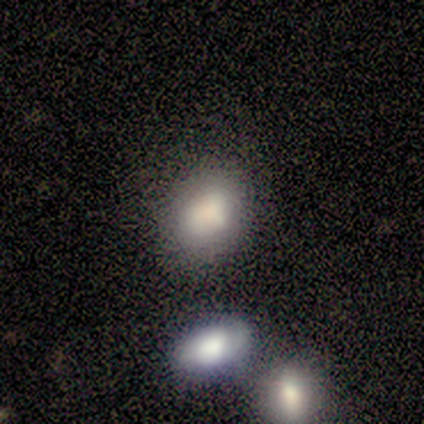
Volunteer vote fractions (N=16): Smooth or featured: smooth — 69% (featured or disk — 31%)
How rounded: in between — 73% (round — 27%)
Merging: none — 81% (minor disturbance — 12%)